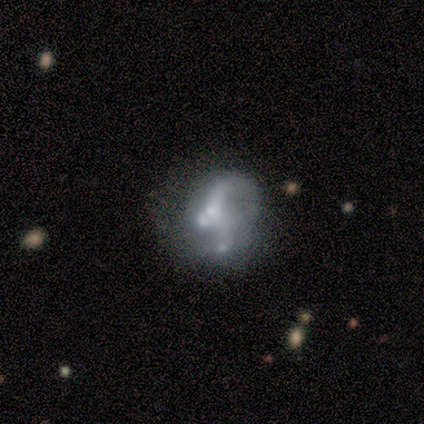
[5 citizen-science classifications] This appears to be a featured or disk galaxy (100%) with no bar (80%), 1 (50%, tied with 2) loose (75%) spiral arms (80%) and a moderate central bulge (60%). Merging: none (60%).